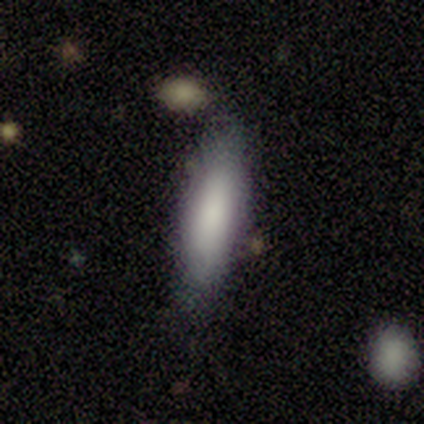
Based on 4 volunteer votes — Morphology: type=smooth (75%); roundness=in between (67%); merging=none (50%).